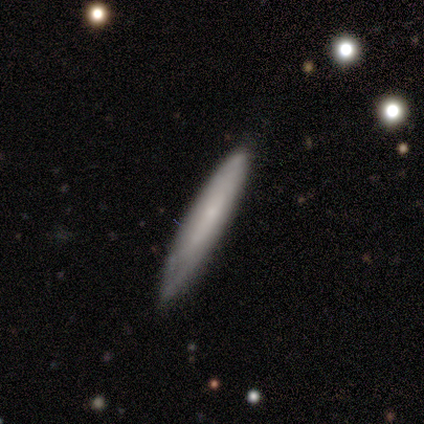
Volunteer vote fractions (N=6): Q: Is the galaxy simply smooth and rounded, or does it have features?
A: smooth — 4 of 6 (67%).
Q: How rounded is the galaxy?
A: cigar-shaped — 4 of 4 (100%).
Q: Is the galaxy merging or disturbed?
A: none — 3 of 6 (50%, tied with minor disturbance).